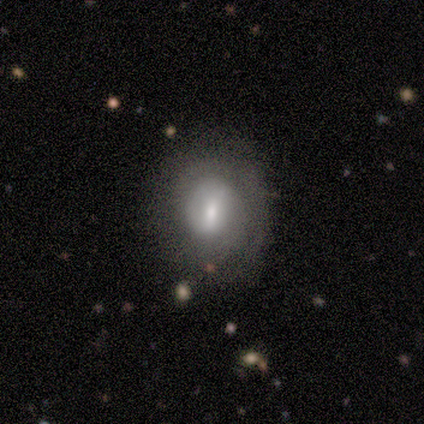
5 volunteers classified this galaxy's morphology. This is clearly a smooth galaxy (80%). How rounded: likely round (75%). Merging: clearly none (80%).